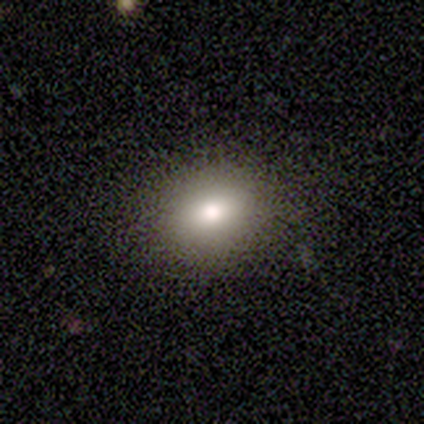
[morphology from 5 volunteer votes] Overall: smooth (100%). How rounded: round (80%). Merging: none (80%).